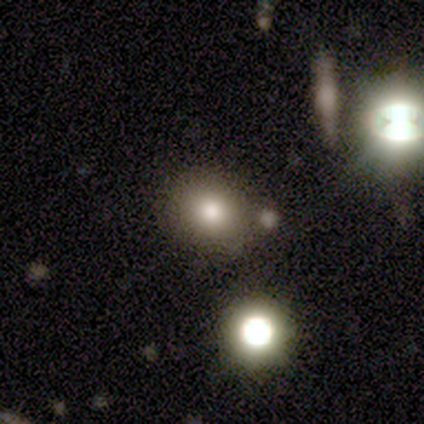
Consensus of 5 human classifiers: A smooth galaxy with no disk features (80%) that is round (50%, tied with in between).

Vote fractions:
- Smooth or featured? smooth: 80% / star or artifact: 20% / featured or disk: 0%
- How rounded? round: 50% (tied) / in between: 50% (tied) / cigar-shaped: 0%
- Merging? none: 50% (tied) / merger: 50% (tied) / minor disturbance: 0% / major disturbance: 0%